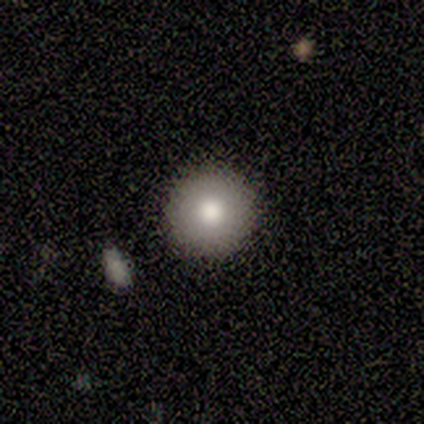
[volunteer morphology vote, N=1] Smooth or featured? 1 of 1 (100%) said smooth. How rounded? 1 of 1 (100%) said in between. Merging? 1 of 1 (100%) said major disturbance.